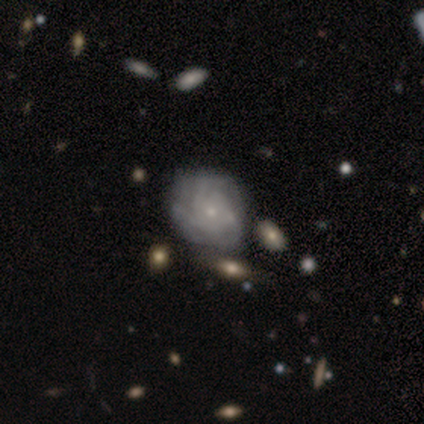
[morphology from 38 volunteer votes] Smooth or featured: featured or disk — 89% (smooth — 11%)
Edge-on disk: no — 100%
Bar: no — 85% (weak — 15%)
Spiral arms: yes — 97% (no — 3%)
Spiral winding: tight — 61% (medium — 33%)
Spiral arm count: can't tell — 52% (3 — 36%)
Bulge size: small — 85% (moderate — 15%)
Merging: none — 32% (minor disturbance — 18%)